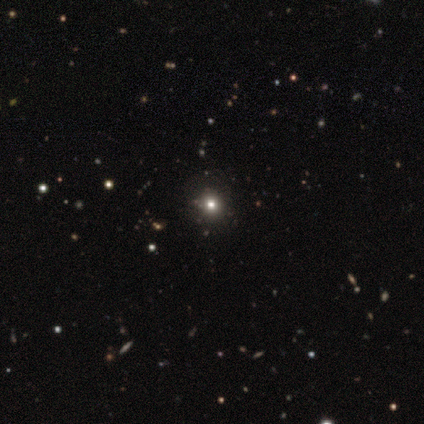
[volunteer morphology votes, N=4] Overall: smooth (50%, tied with star or artifact). How rounded: round (100%). Merging: none (100%).